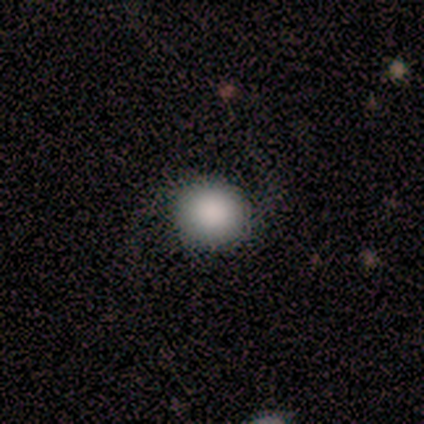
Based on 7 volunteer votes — Smooth or featured? 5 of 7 (71%) said smooth. How rounded? 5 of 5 (100%) said round. Merging? 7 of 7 (100%) said none.